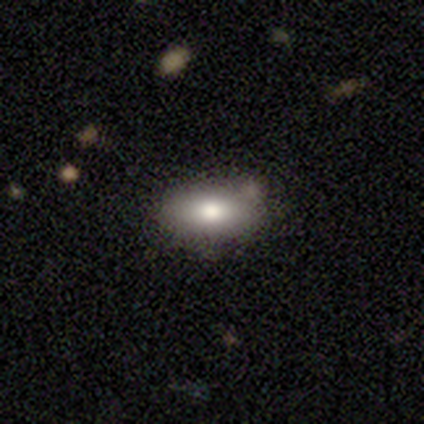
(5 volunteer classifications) Smooth or featured?
  - smooth: 80% *
  - featured or disk: 20%
  - star or artifact: 0%
How rounded?
  - in between: 75% *
  - cigar-shaped: 25%
  - round: 0%
Merging?
  - none: 100% *
  - minor disturbance: 0%
  - major disturbance: 0%
  - merger: 0%